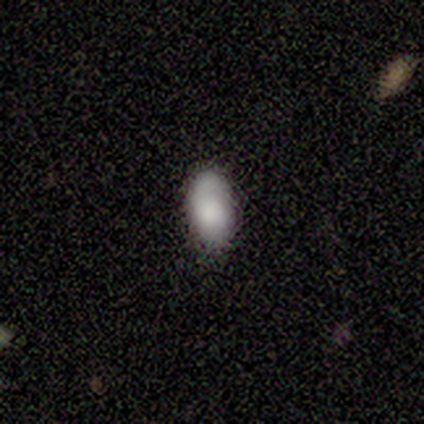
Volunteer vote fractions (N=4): A smooth galaxy with no disk features (75%) that is in between round and cigar-shaped (100%).

Vote fractions:
- Smooth or featured? smooth: 75% / featured or disk: 25% / star or artifact: 0%
- How rounded? in between: 100% / round: 0% / cigar-shaped: 0%
- Merging? none: 75% / minor disturbance: 25% / major disturbance: 0% / merger: 0%